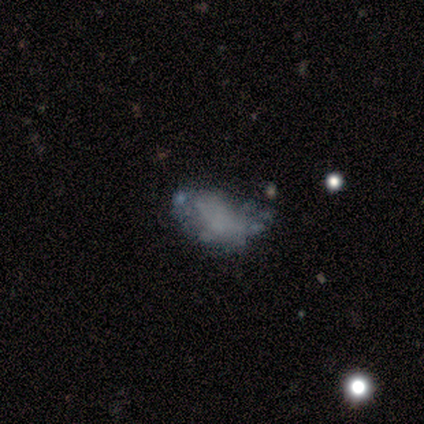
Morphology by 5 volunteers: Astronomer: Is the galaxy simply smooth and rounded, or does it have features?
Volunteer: featured or disk — 100%.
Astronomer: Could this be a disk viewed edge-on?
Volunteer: no — 100%.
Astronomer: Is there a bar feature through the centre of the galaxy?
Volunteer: no — 80%.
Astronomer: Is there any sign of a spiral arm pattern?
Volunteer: no — 100%.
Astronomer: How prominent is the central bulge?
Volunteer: none — 100%.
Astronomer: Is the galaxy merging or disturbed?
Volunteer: minor disturbance — 60%.